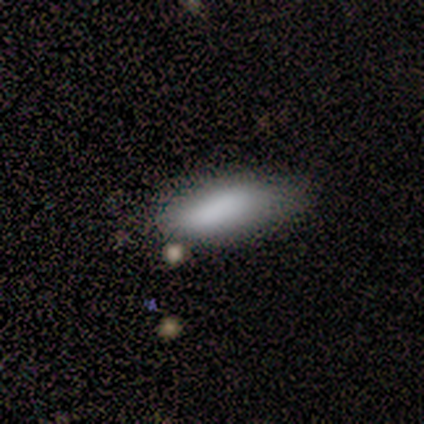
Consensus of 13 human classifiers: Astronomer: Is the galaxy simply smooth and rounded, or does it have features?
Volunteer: smooth — 92%.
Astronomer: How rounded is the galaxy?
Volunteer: in between — 67%.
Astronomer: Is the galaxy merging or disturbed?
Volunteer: none — 62%.